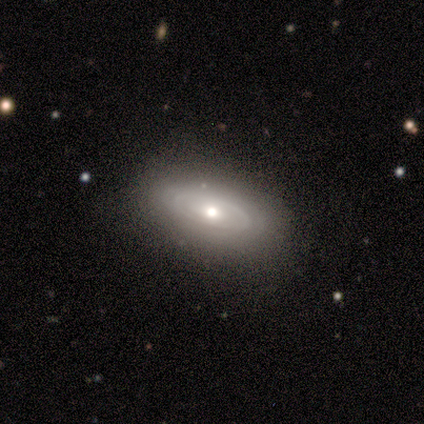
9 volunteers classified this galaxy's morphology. smooth-or-featured: featured or disk: 56% | smooth: 44% | star or artifact: 0%
  disk-edge-on: no: 100% | yes: 0%
    bar: no: 100% | strong: 0% | weak: 0%
    has-spiral-arms: no: 100% | yes: 0%
    bulge-size: moderate: 80% | small: 20% | dominant: 0% | large: 0% | none: 0%
  merging: none: 100% | minor disturbance: 0% | major disturbance: 0% | merger: 0%